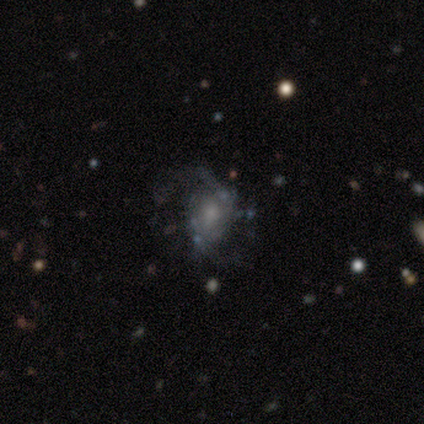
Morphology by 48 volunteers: smooth-or-featured: featured or disk: 73% | smooth: 15% | star or artifact: 12%
  disk-edge-on: no: 100% | yes: 0%
    bar: no: 69% | weak: 26% | strong: 6%
    has-spiral-arms: yes: 80% | no: 20%
      spiral-winding: medium: 57% | loose: 39% | tight: 4%
      spiral-arm-count: 2: 86% | can't tell: 7% | 1: 4% | 3: 4% | 4: 0% | more than 4: 0%
    bulge-size: small: 51% | moderate: 40% | none: 9% | dominant: 0% | large: 0%
  merging: none: 67% | major disturbance: 19% | minor disturbance: 12% | merger: 2%